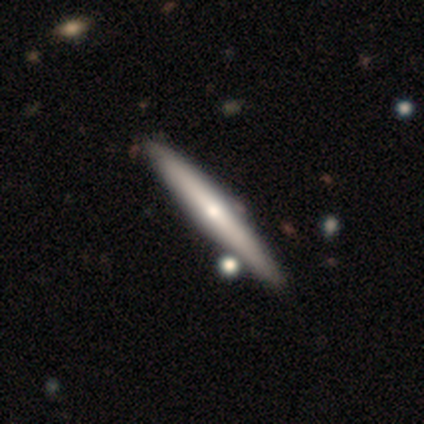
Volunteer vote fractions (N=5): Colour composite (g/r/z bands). It shows a smooth galaxy with no disk features (60%) that is cigar-shaped (100%). Merging: none (100%).